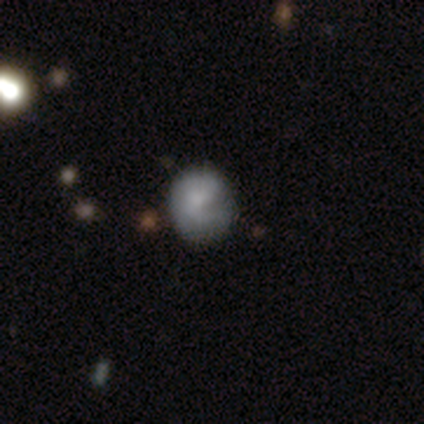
Q: Smooth or featured?
A: smooth (75%); runner-up: star or artifact (25%)
Q: How rounded?
A: in between (67%); runner-up: round (33%)
Q: Merging?
A: minor disturbance (67%); runner-up: none (33%)